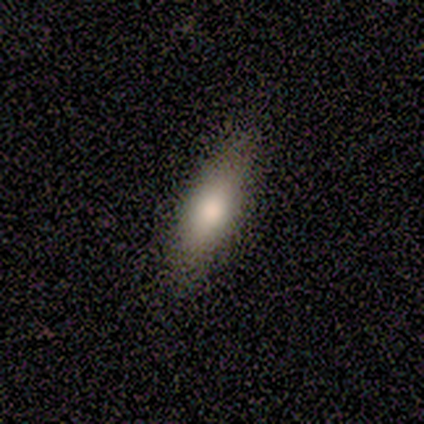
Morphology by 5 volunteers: type=featured or disk (60%); edge-on=no (100%); bar=no (100%); spiral arms=no (100%); bulge=large (67%); merging=none (50%, tied with minor disturbance).